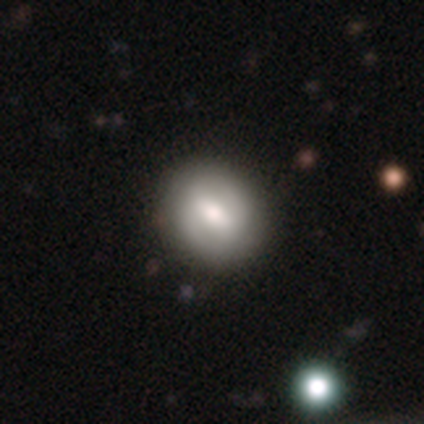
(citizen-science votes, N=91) smooth_or_featured: smooth (p=0.48) [alt: featured or disk p=0.43]
how_rounded: round (p=0.55) [alt: in between p=0.43]
merging: none (p=0.86) [alt: minor disturbance p=0.07]